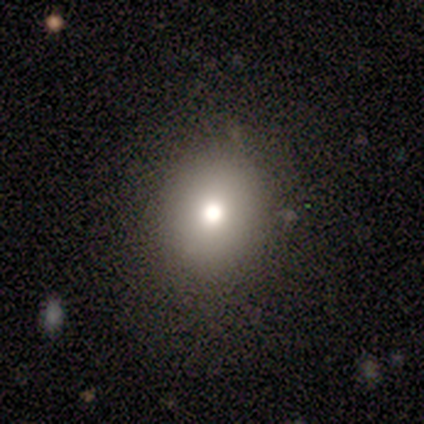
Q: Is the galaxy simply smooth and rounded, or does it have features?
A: smooth — 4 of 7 (57%).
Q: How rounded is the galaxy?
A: round — 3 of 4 (75%).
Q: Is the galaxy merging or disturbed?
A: none — 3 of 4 (75%).